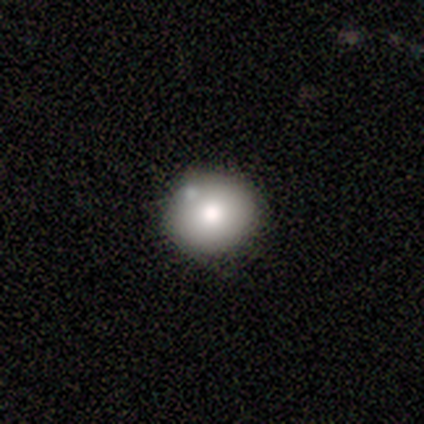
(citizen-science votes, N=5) smooth_or_featured: smooth (p=0.60) [alt: featured or disk p=0.40]
how_rounded: round (p=1.00)
merging: none (p=1.00)